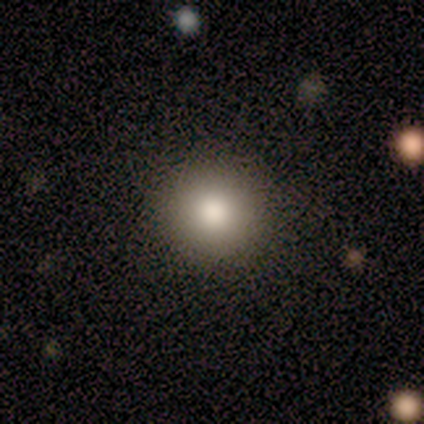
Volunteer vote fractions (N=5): This appears to be a smooth galaxy with no disk features (80%) that is round (100%). Merging: none (100%).